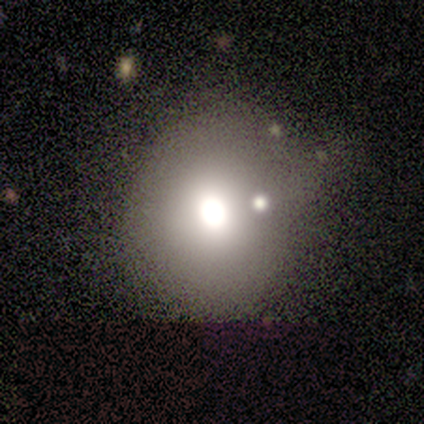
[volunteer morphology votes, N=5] smooth-or-featured: smooth: 40% (tied) | featured or disk: 40% (tied) | star or artifact: 20%
  how-rounded: round: 100% | in between: 0% | cigar-shaped: 0%
  merging: none: 100% | minor disturbance: 0% | major disturbance: 0% | merger: 0%